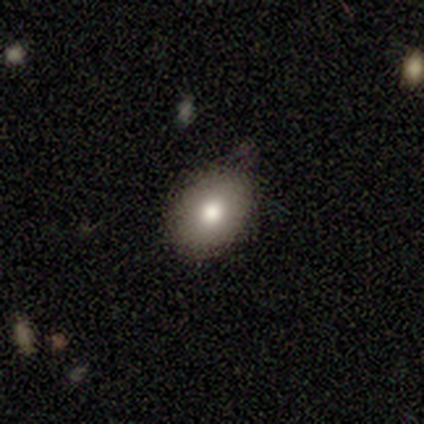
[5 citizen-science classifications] Smooth or featured?
  - smooth: 80% *
  - featured or disk: 20%
  - star or artifact: 0%
How rounded?
  - in between: 100% *
  - round: 0%
  - cigar-shaped: 0%
Merging?
  - none: 80% *
  - minor disturbance: 20%
  - major disturbance: 0%
  - merger: 0%